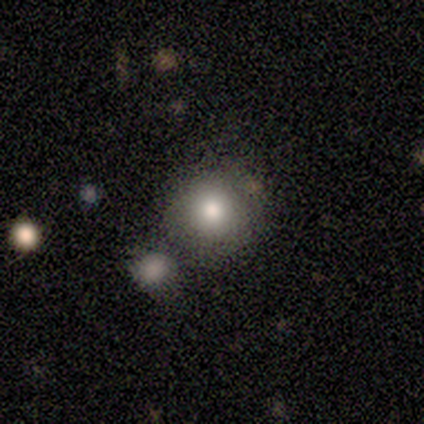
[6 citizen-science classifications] Smooth or featured: smooth — 83% (star or artifact — 17%)
How rounded: round — 80% (in between — 20%)
Merging: minor disturbance — 60% (none — 40%)